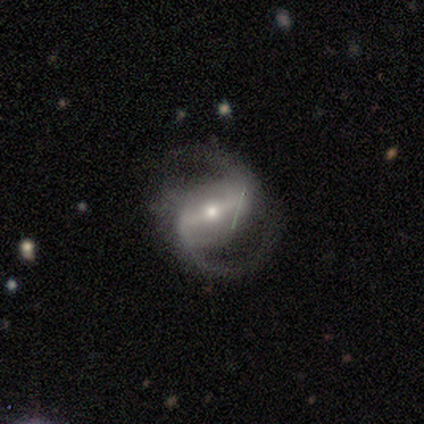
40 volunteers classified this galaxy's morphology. smooth_or_featured: featured or disk (p=0.90) [alt: star or artifact p=0.07]
disk_edge_on: no (p=0.97) [alt: yes p=0.03]
bar: strong (p=0.63) [alt: weak p=0.31]
has_spiral_arms: yes (p=1.00)
spiral_winding: medium (p=0.51) [alt: loose p=0.46]
spiral_arm_count: 2 (p=0.89) [alt: 1 p=0.06]
bulge_size: moderate (p=0.51) [alt: small p=0.49]
merging: none (p=0.86) [alt: minor disturbance p=0.08]